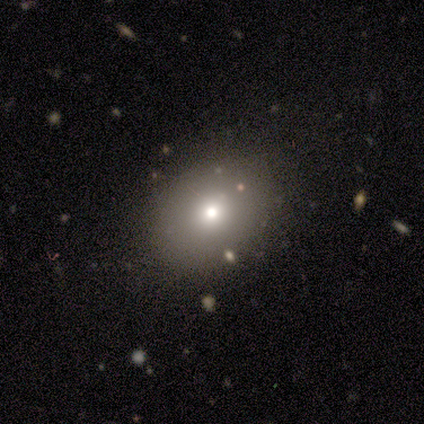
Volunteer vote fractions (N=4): Smooth or featured: smooth — 100%
How rounded: round — 50% (tied with in between — 50%)
Merging: none — 50% (tied with minor disturbance — 50%)